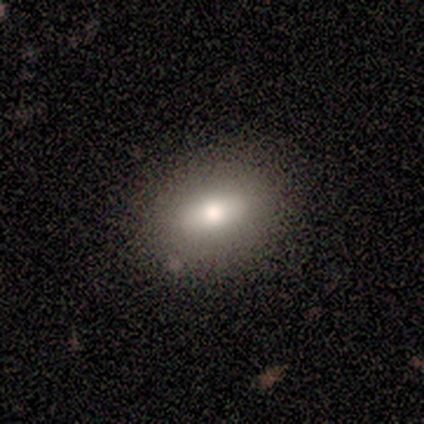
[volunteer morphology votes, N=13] A smooth galaxy with no disk features (69%) that is in between round and cigar-shaped (78%). Merging: none (82%).